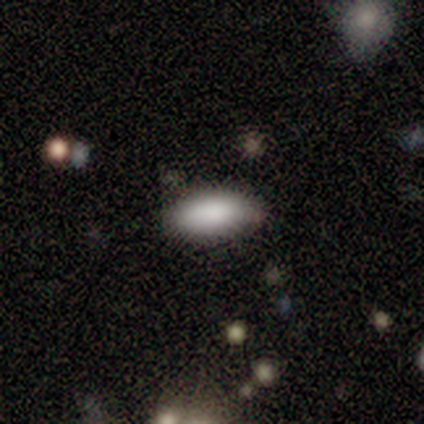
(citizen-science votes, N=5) Smooth or featured?
  - smooth: 100% *
  - featured or disk: 0%
  - star or artifact: 0%
How rounded?
  - in between: 100% *
  - round: 0%
  - cigar-shaped: 0%
Merging?
  - none: 100% *
  - minor disturbance: 0%
  - major disturbance: 0%
  - merger: 0%